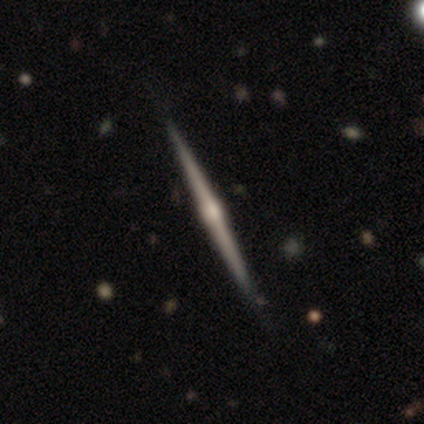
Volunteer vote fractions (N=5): Smooth or featured?
  - featured or disk: 60% *
  - smooth: 40%
  - star or artifact: 0%
Edge-on disk?
  - yes: 100% *
  - no: 0%
Edge-on bulge?
  - rounded: 100% *
  - boxy: 0%
  - none: 0%
Merging?
  - none: 80% *
  - minor disturbance: 20%
  - major disturbance: 0%
  - merger: 0%